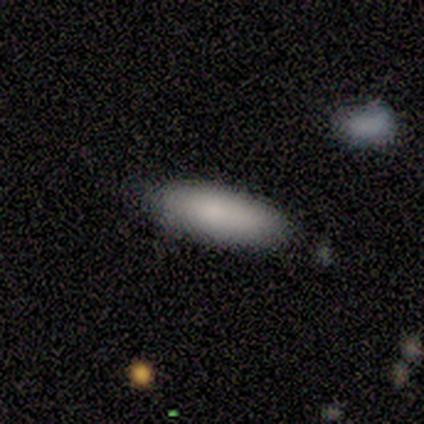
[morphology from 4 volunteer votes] Overall: smooth (100%). How rounded: in between (75%). Merging: none (75%).